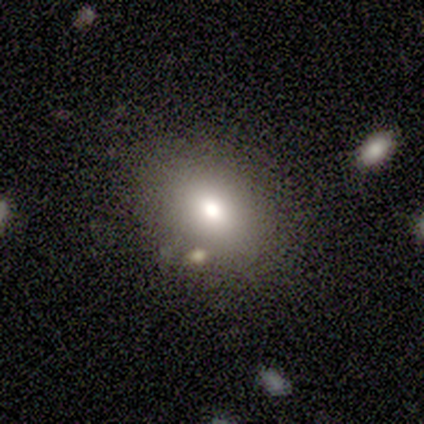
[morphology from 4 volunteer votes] Overall: smooth (75%). How rounded: in between (67%; round 33%). Merging: none (67%; minor disturbance 33%).